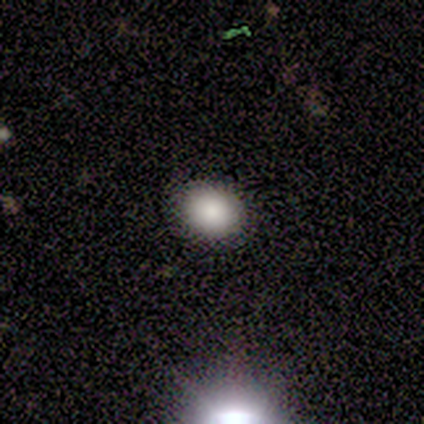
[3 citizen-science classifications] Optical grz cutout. It shows a smooth galaxy with no disk features (100%) that is in between round and cigar-shaped (67%). Merging: none (100%).